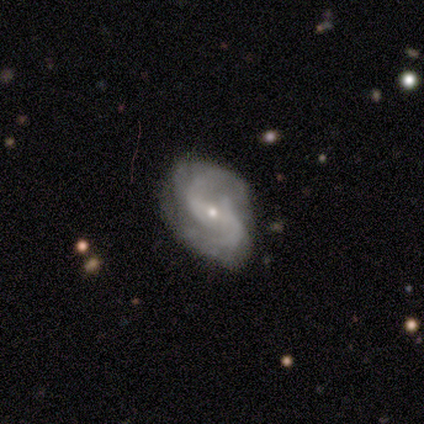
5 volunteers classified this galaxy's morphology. Smooth or featured? featured or disk (100%)
Edge-on disk? no (100%)
Bar? no (80%)
Spiral arms? yes (100%)
Spiral winding? medium (40%, tied with loose)
Spiral arm count? 2 (80%)
Bulge size? small (100%)
Merging? none (100%)